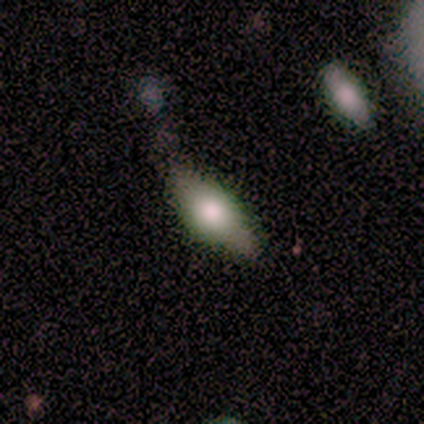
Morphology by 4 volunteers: Smooth or featured: featured or disk — 75% (smooth — 25%)
Edge-on disk: yes — 67% (no — 33%)
Edge-on bulge: rounded — 100%
Merging: none — 100%